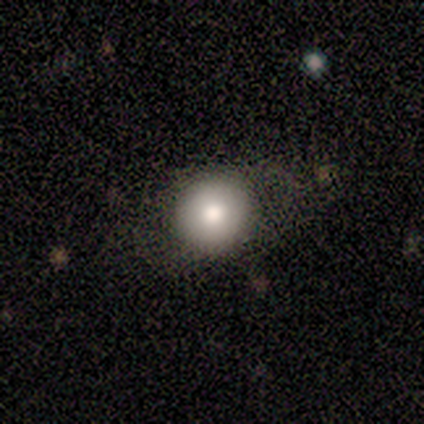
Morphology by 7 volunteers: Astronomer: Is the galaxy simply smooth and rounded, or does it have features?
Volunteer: smooth — 71%.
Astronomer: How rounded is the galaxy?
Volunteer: round — 60%.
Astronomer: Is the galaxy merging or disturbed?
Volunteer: none — 60%.